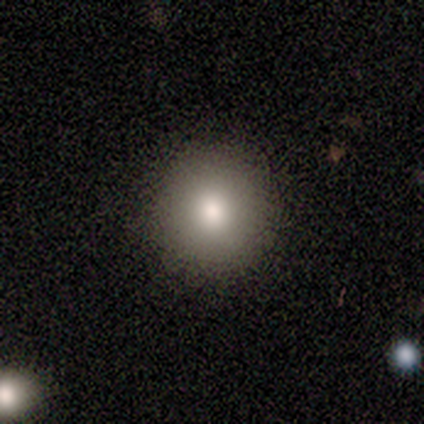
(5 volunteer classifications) smooth 80%, star or artifact 20%, featured or disk 0%. Down the decision tree: how rounded — round (100%); merging — none (75%).